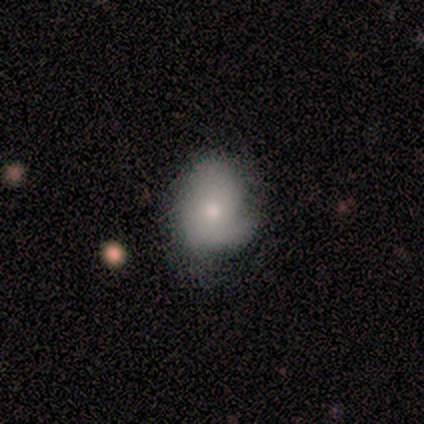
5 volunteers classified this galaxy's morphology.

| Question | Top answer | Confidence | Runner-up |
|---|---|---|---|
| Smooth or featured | smooth | 60% | featured or disk (40%) |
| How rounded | round | 100% | — |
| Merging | none | 40% | tied: minor disturbance (40%) |